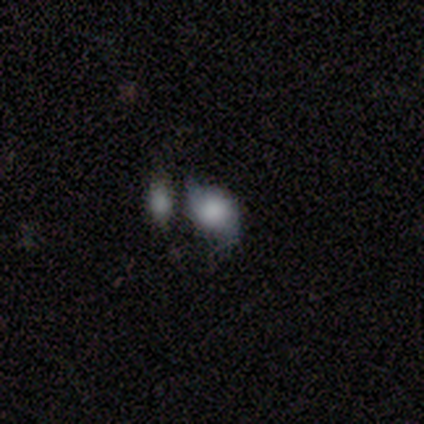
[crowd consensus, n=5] smooth-or-featured: smooth: 80% | featured or disk: 20% | star or artifact: 0%
  how-rounded: round: 75% | in between: 25% | cigar-shaped: 0%
  merging: none: 60% | minor disturbance: 20% | major disturbance: 20% | merger: 0%